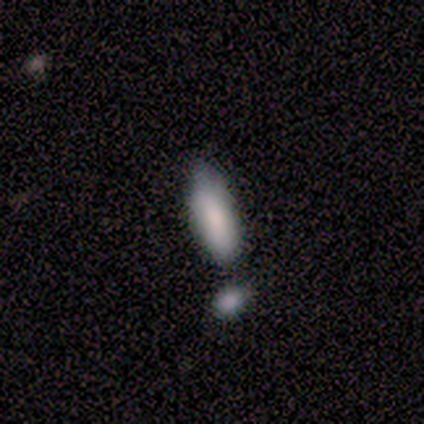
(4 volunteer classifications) smooth_or_featured: smooth (p=1.00)
how_rounded: in between (p=0.50) [tied with: cigar-shaped p=0.50]
merging: none (p=0.75) [alt: minor disturbance p=0.25]